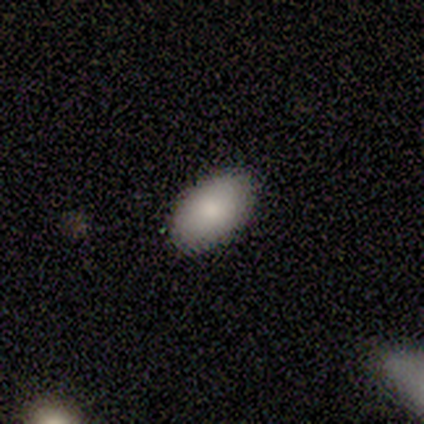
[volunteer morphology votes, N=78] A smooth galaxy with no disk features (87%) that is in between round and cigar-shaped (96%). Merging: none (50%).